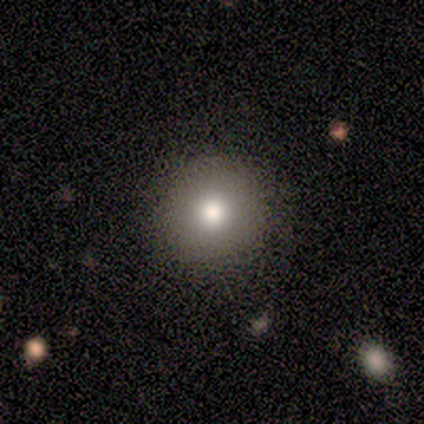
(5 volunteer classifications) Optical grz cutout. It shows a smooth galaxy with no disk features (80%) that is round (100%). Merging: none (80%).